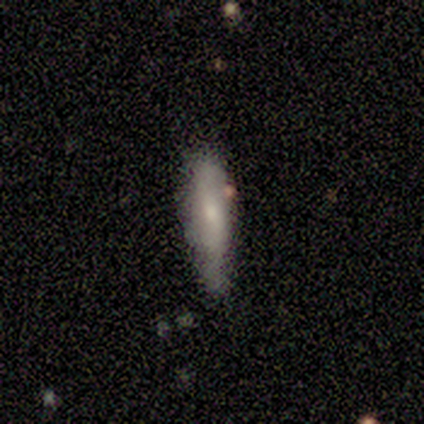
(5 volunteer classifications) A featured or disk galaxy (60%) viewed edge-on (100%) with a rounded central bulge (100%).

Vote fractions:
- Smooth or featured? featured or disk: 60% / smooth: 40% / star or artifact: 0%
- Edge-on disk? yes: 100% / no: 0%
- Edge-on bulge? rounded: 100% / boxy: 0% / none: 0%
- Merging? none: 60% / minor disturbance: 40% / major disturbance: 0% / merger: 0%